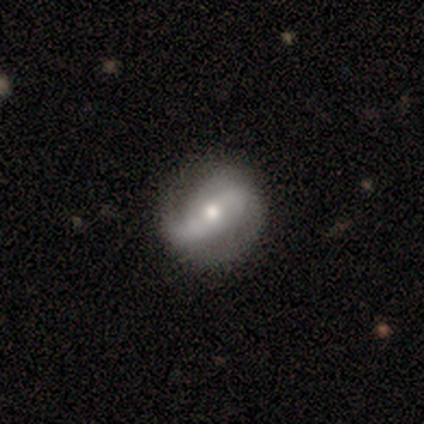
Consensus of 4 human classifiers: featured or disk 100%, smooth 0%, star or artifact 0%. Down the decision tree: edge-on disk — no (100%); bar — no (75%); spiral arms — yes (100%); spiral arm count — 2 (50%); spiral winding — medium (75%); bulge size — moderate (75%); merging — none (100%).